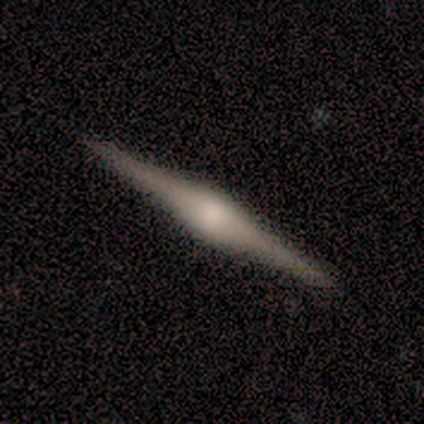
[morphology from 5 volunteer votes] type=featured or disk (80%); edge-on=yes (100%); edge-on bulge=rounded (100%); merging=none (100%).